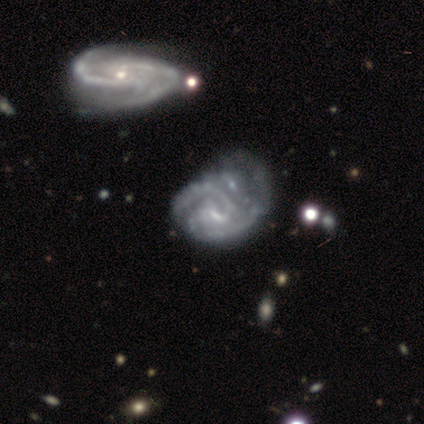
smooth-or-featured: featured or disk: 80% | smooth: 20% | star or artifact: 0%
  disk-edge-on: no: 100% | yes: 0%
    bar: strong: 50% (tied) | no: 50% (tied) | weak: 0%
    has-spiral-arms: yes: 100% | no: 0%
      spiral-winding: tight: 50% (tied) | medium: 50% (tied) | loose: 0%
      spiral-arm-count: 2: 50% | 3: 25% | can't tell: 25% | 1: 0% | 4: 0% | more than 4: 0%
    bulge-size: none: 75% | moderate: 25% | dominant: 0% | large: 0% | small: 0%
  merging: major disturbance: 40% | none: 20% | minor disturbance: 20% | merger: 20%